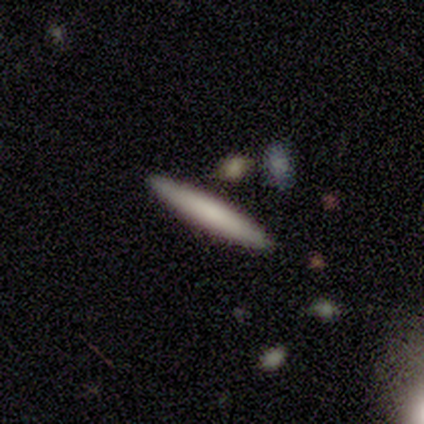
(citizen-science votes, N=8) A smooth galaxy with no disk features (75%) that is cigar-shaped (100%).

Vote fractions:
- Smooth or featured? smooth: 75% / featured or disk: 25% / star or artifact: 0%
- How rounded? cigar-shaped: 100% / round: 0% / in between: 0%
- Merging? none: 88% / minor disturbance: 12% / major disturbance: 0% / merger: 0%